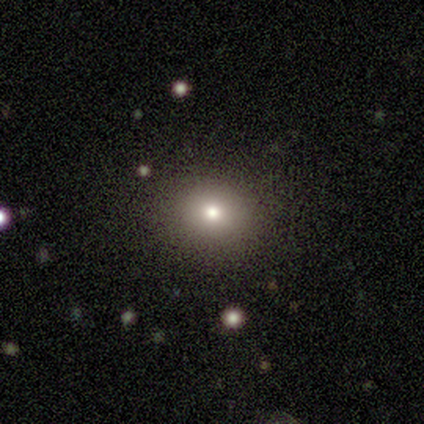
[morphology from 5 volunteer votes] Volunteers were most divided on "smooth or featured": smooth: 60%, featured or disk: 20%, star or artifact: 20%. More confident: how rounded — round (100%); merging — none (100%).